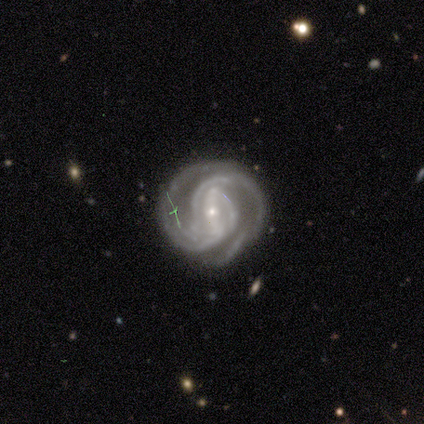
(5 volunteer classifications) Smooth or featured: featured or disk — 100%
Edge-on disk: no — 100%
Bar: strong — 40% (tied with weak — 40%)
Spiral arms: yes — 100%
Spiral winding: medium — 60% (tight — 40%)
Spiral arm count: 2 — 40% (tied with 3 — 40%)
Bulge size: small — 100%
Merging: none — 80% (minor disturbance — 20%)